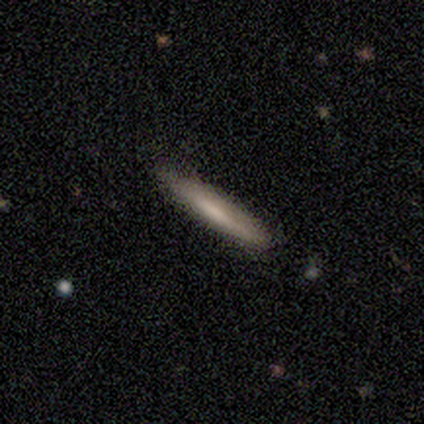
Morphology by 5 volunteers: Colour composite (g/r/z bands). It shows a featured or disk galaxy (60%) viewed edge-on (100%) with a rounded central bulge (67%). Merging: none (100%).